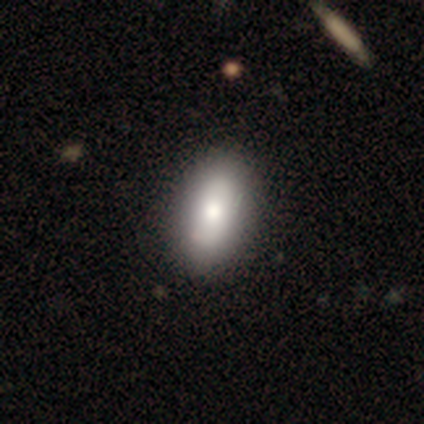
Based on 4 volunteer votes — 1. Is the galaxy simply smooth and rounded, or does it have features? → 100% smooth, 0% featured or disk, 0% star or artifact.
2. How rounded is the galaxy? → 100% in between, 0% round, 0% cigar-shaped.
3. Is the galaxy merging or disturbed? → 75% none, 25% minor disturbance, 0% major disturbance, 0% merger.